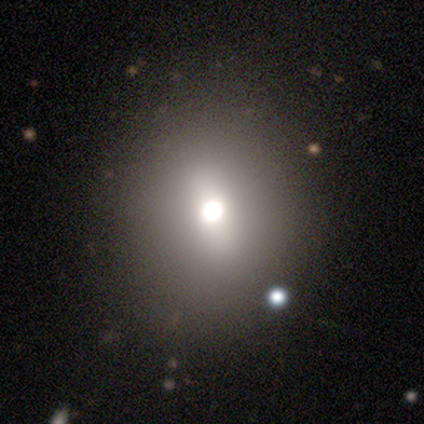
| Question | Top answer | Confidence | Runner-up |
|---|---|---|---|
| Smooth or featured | featured or disk | 60% | smooth (40%) |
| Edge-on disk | no | 100% | — |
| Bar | weak | 100% | — |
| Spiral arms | no | 100% | — |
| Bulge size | dominant | 33% | tied: large (33%), moderate (33%) |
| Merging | none | 60% | minor disturbance (40%) |